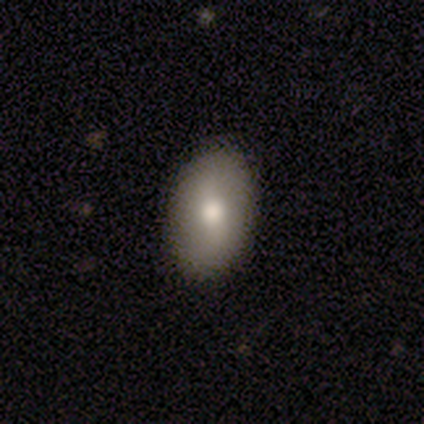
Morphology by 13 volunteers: Volunteers were most divided on "merging": none: 69%, minor disturbance: 15%, major disturbance: 15%, merger: 0%. More confident: how rounded — in between (100%); smooth or featured — smooth (85%).